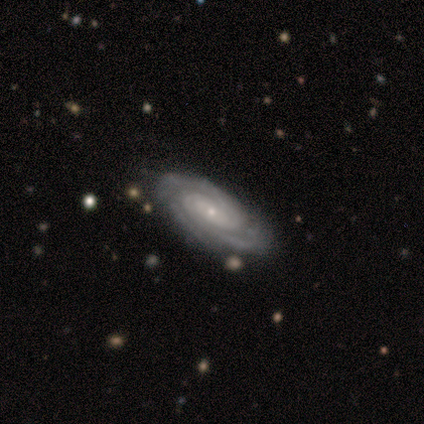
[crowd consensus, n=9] Morphology: type=featured or disk (89%); edge-on=no (88%); bar=no (86%); spiral arms=yes (100%); winding=tight (86%); arm count=2 (43%); bulge=small (100%); merging=none (75%).